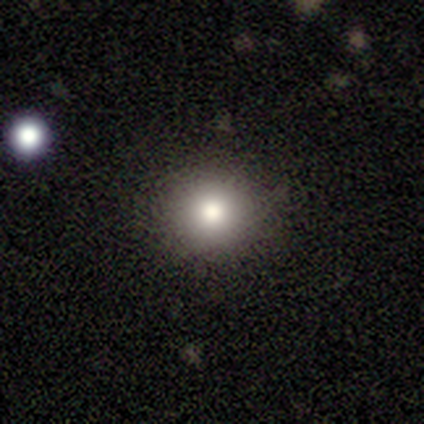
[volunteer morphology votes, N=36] This is likely a smooth galaxy (75%). How rounded: clearly round (93%). Merging: likely none (78%).